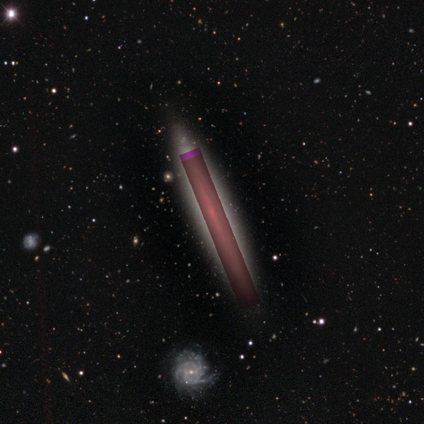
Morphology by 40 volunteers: Volunteers were most divided on "smooth or featured": star or artifact: 50%, featured or disk: 32%, smooth: 18%.